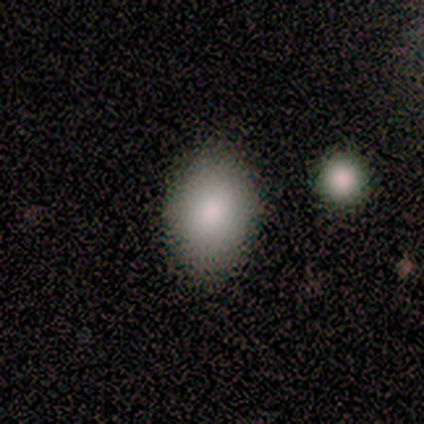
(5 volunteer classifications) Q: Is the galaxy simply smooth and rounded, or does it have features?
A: smooth — 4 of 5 (80%).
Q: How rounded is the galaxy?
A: in between — 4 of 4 (100%).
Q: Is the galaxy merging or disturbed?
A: none — 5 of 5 (100%).